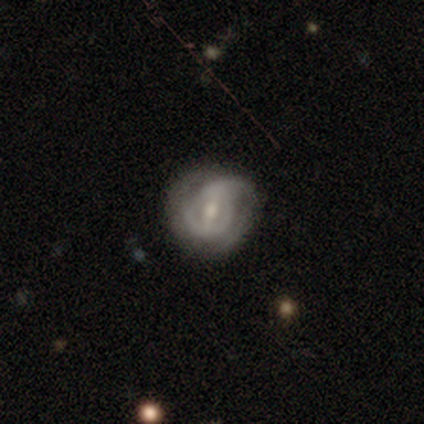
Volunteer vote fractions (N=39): A featured or disk galaxy (85%) with a weak bar (52%), 1 (32%, tied with can't tell) tight (48%) spiral arms (94%) and a moderate central bulge (48%).

Vote fractions:
- Smooth or featured? featured or disk: 85% / smooth: 13% / star or artifact: 3%
- Edge-on disk? no: 100% / yes: 0%
- Bar? weak: 52% / strong: 42% / no: 6%
- Spiral arms? yes: 94% / no: 6%
- Spiral winding? tight: 48% / medium: 32% / loose: 19%
- Spiral arm count? 1: 32% (tied) / can't tell: 32% (tied) / 2: 29% / 3: 6% / 4: 0% / more than 4: 0%
- Bulge size? moderate: 48% / small: 45% / large: 3% / none: 3% / dominant: 0%
- Merging? none: 50% / minor disturbance: 29% / major disturbance: 21% / merger: 0%